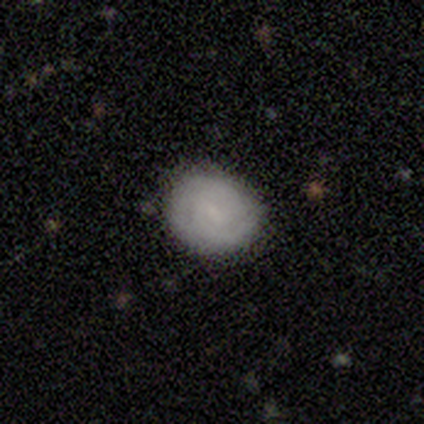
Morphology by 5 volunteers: This appears to be a featured or disk galaxy (60%) with a weak bar (67%), 2 (100%) tight (100%) spiral arms (67%) and no central bulge (100%). Merging: none (60%).